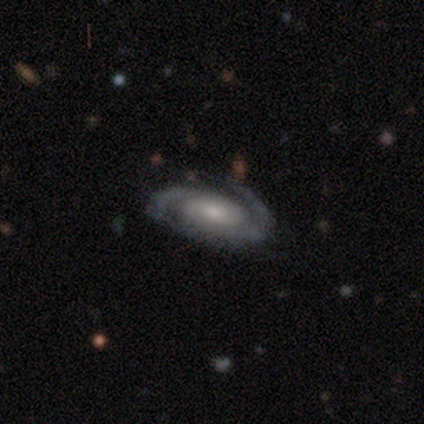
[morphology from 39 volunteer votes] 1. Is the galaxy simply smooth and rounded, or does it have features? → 92% featured or disk, 8% star or artifact, 0% smooth.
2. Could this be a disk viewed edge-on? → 94% no, 6% yes.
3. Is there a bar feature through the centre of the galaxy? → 50% no, 44% weak, 6% strong.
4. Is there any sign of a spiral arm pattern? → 97% yes, 3% no.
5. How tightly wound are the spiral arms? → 61% tight, 33% medium, 6% loose.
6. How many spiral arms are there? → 88% 2, 6% 1, 3% 3, 3% can't tell, 0% 4, 0% more than 4.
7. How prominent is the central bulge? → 56% moderate, 35% small, 6% large, 3% none, 0% dominant.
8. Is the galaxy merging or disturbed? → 78% none, 19% minor disturbance, 3% major disturbance, 0% merger.